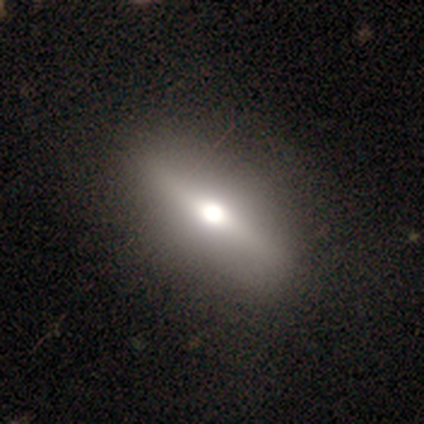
Morphology: type=smooth (67%); roundness=in between (100%); merging=none (67%).